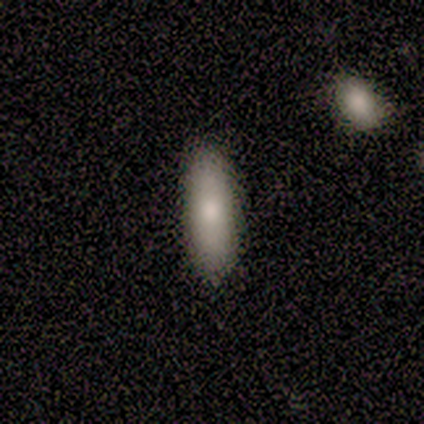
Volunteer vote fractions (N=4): smooth-or-featured: smooth: 75% | featured or disk: 25% | star or artifact: 0%
  how-rounded: cigar-shaped: 67% | in between: 33% | round: 0%
  merging: none: 100% | minor disturbance: 0% | major disturbance: 0% | merger: 0%